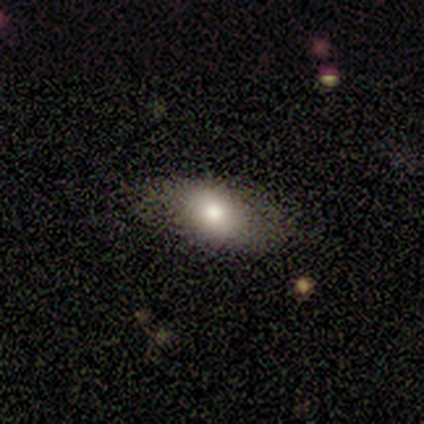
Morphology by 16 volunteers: Overall: smooth (81%). How rounded: in between (77%). Merging: none (75%).